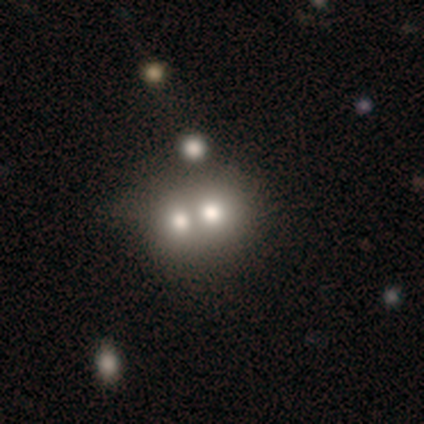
This appears to be a smooth galaxy with no disk features (55%) that is round (86%). Merging: merger (73%).